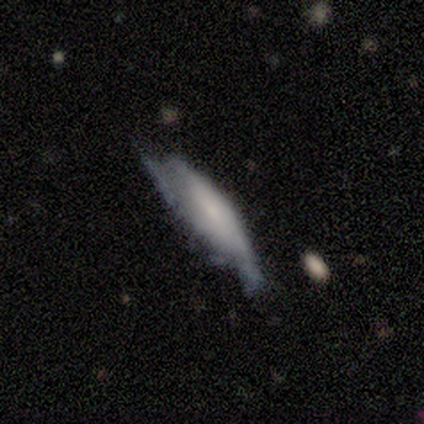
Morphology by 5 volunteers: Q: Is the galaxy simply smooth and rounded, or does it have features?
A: smooth — 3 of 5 (60%).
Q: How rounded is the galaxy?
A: cigar-shaped — 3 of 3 (100%).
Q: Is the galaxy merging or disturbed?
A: none — 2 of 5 (40%, tied with minor disturbance).